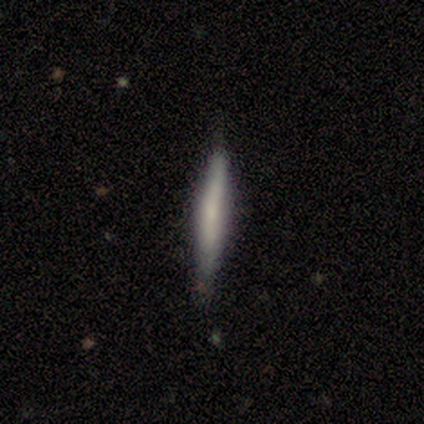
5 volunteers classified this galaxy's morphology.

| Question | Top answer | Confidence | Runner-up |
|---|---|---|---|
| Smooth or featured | smooth | 100% | — |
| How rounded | cigar-shaped | 100% | — |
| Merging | none | 100% | — |